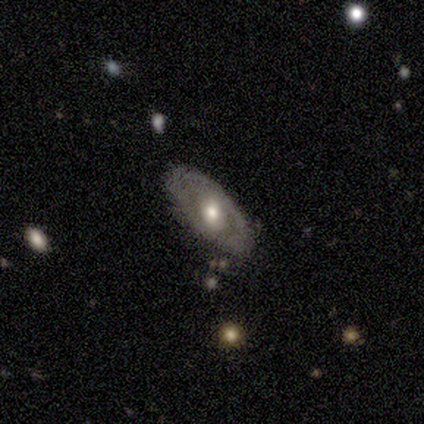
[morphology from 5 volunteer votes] Volunteers were most divided on "edge-on disk" (2-way tie): yes: 50%, no: 50%. More confident: edge-on bulge — rounded (100%); smooth or featured — featured or disk (80%); merging — none (80%).